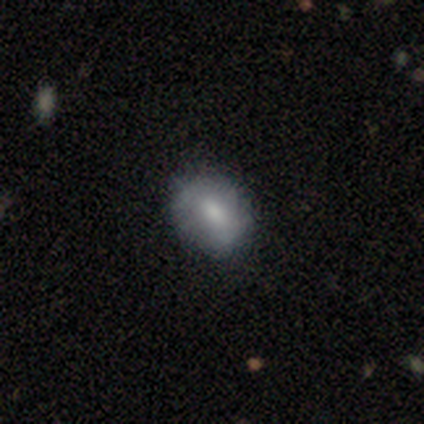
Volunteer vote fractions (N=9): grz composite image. It shows a smooth galaxy with no disk features (56%) that is in between round and cigar-shaped (100%). Merging: none (78%).